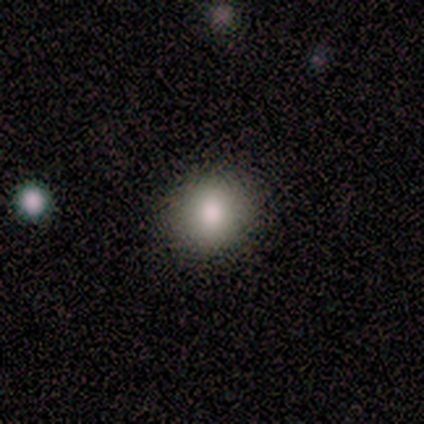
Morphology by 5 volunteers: This appears to be a smooth galaxy with no disk features (100%) that is round (100%). Merging: none (100%).